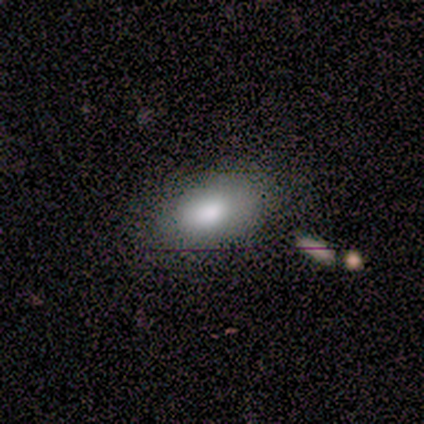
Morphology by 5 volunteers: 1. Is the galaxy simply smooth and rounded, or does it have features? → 100% smooth, 0% featured or disk, 0% star or artifact.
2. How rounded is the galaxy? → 100% in between, 0% round, 0% cigar-shaped.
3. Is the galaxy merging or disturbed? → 60% minor disturbance, 40% none, 0% major disturbance, 0% merger.